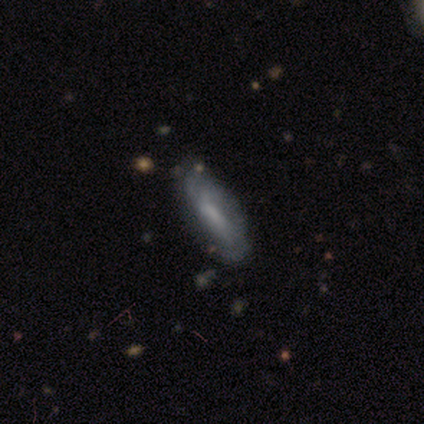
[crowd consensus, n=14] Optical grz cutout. It shows a smooth galaxy with no disk features (57%) that is cigar-shaped (75%). Merging: none (71%).